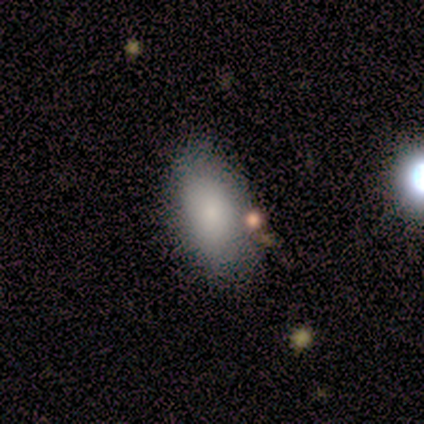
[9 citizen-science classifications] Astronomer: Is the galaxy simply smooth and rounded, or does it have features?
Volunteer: smooth — 56% (runner-up: star or artifact, 33%).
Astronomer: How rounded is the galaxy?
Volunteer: in between — 100%.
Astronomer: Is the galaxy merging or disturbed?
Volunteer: none — 50% (runner-up: minor disturbance, 33%).